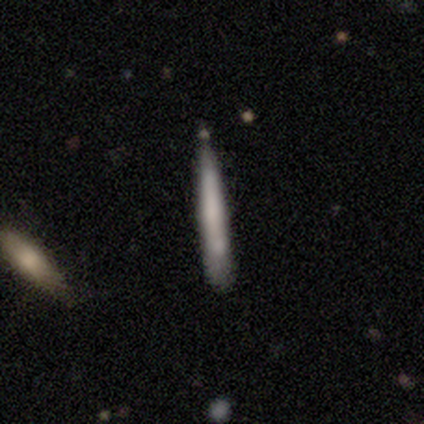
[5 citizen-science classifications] Smooth or featured? smooth (100%)
How rounded? cigar-shaped (100%)
Merging? none (60%)